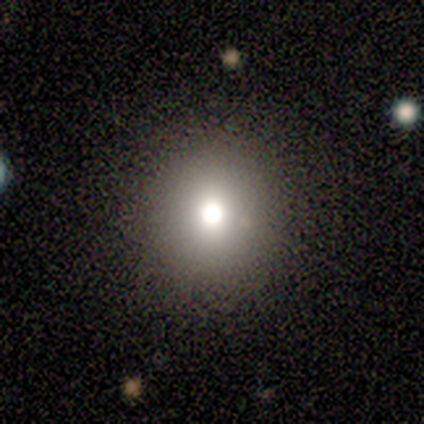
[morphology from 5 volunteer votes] type=smooth (80%); roundness=round (100%); merging=none (100%).